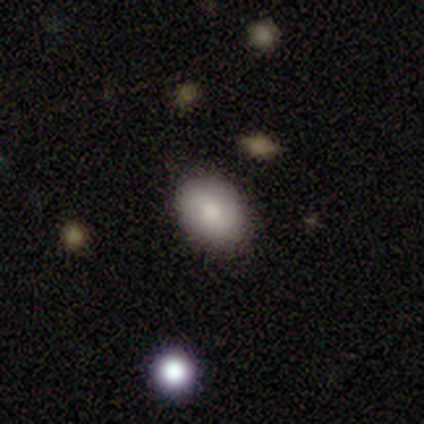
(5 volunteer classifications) smooth 100%, featured or disk 0%, star or artifact 0%. Down the decision tree: how rounded — in between (80%); merging — none (100%).